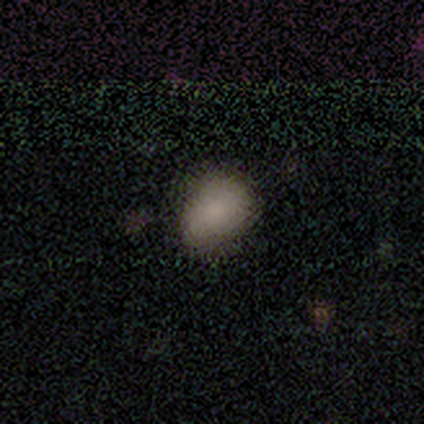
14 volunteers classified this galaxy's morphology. This is likely a smooth galaxy (79%). How rounded: likely in between (64%). Merging: likely none (64%).